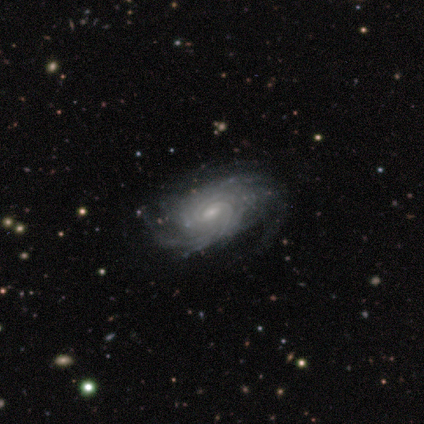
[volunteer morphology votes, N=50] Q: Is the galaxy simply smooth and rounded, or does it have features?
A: featured or disk — 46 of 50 (92%).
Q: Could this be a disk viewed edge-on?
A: no — 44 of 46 (96%).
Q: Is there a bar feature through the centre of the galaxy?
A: weak — 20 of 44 (45%).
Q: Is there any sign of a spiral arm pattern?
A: yes — 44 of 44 (100%).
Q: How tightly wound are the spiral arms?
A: tight — 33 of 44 (75%).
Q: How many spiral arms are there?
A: can't tell — 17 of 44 (39%).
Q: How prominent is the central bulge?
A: small — 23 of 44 (52%).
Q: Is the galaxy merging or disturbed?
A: none — 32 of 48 (67%).